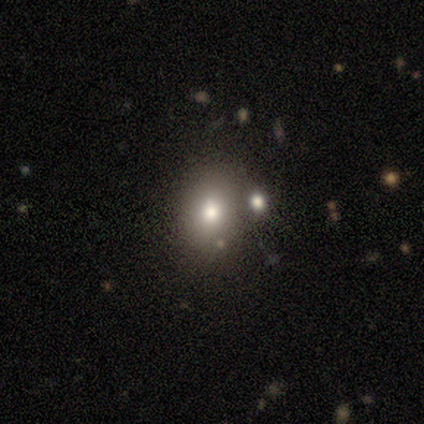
Morphology: type=smooth (57%); roundness=in between (75%); merging=none (40%, tied with merger).